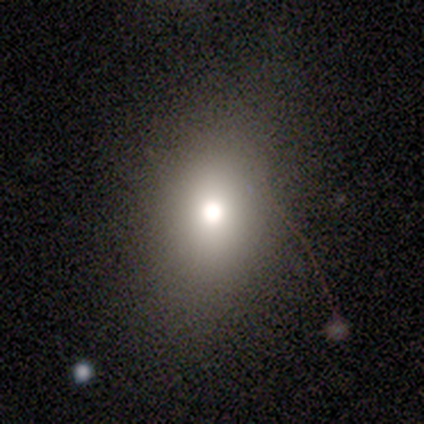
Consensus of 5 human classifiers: Morphology: type=smooth (60%); roundness=round (67%); merging=none (100%).